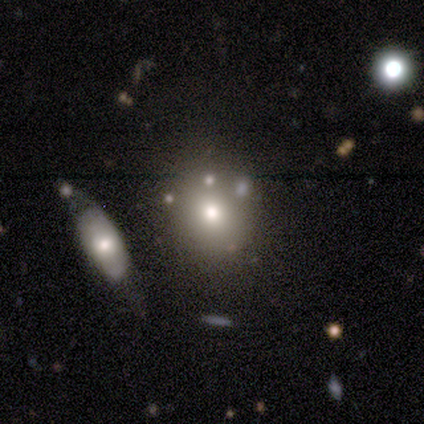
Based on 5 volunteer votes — smooth-or-featured: smooth: 60% | featured or disk: 20% | star or artifact: 20%
  how-rounded: round: 67% | in between: 33% | cigar-shaped: 0%
  merging: none: 100% | minor disturbance: 0% | major disturbance: 0% | merger: 0%